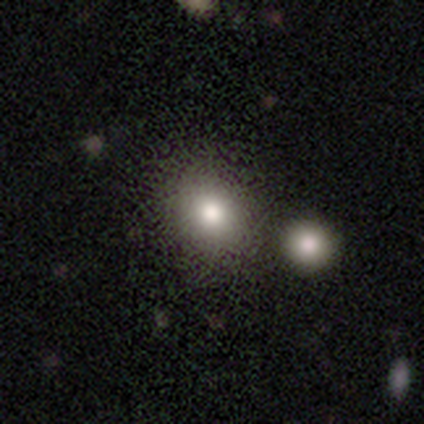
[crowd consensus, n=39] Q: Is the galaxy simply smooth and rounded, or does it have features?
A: smooth — 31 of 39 (79%).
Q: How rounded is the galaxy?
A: round — 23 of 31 (74%).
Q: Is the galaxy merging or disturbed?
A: none — 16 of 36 (44%).